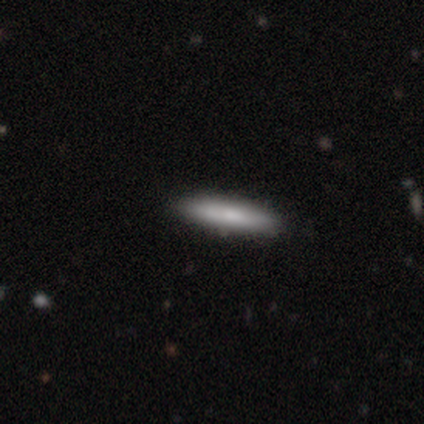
Smooth or featured? smooth (80%)
How rounded? cigar-shaped (100%)
Merging? none (100%)